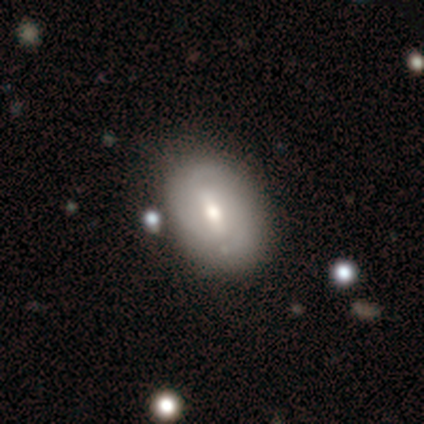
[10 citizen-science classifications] Smooth or featured? 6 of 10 (60%) said featured or disk. Edge-on disk? 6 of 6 (100%) said no. Bar? 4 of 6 (67%) said weak. Spiral arms? 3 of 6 (50%, tied with no) said yes. Spiral winding? 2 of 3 (67%) said tight. Spiral arm count? 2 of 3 (67%) said 2. Bulge size? 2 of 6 (33%, tied with moderate) said large. Merging? 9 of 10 (90%) said none.